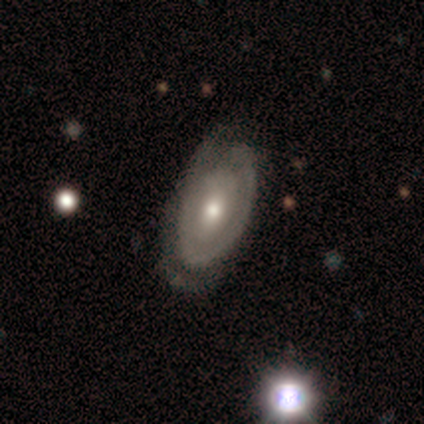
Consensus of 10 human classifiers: Q: Smooth or featured?
A: featured or disk (90%); runner-up: smooth (10%)
Q: Edge-on disk?
A: no (100%)
Q: Bar?
A: no (56%); runner-up: weak (33%)
Q: Spiral arms?
A: yes (89%); runner-up: no (11%)
Q: Spiral winding?
A: tight (62%); runner-up: medium (25%)
Q: Spiral arm count?
A: 1 (38%); tied with: 2 (38%)
Q: Bulge size?
A: moderate (67%); runner-up: small (33%)
Q: Merging?
A: none (70%); runner-up: minor disturbance (30%)